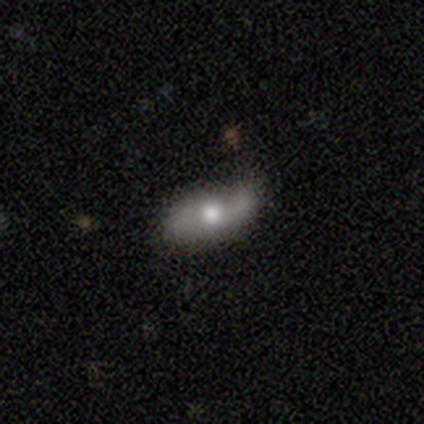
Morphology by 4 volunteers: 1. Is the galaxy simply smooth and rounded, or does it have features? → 75% smooth, 25% star or artifact, 0% featured or disk.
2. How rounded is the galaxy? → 67% in between, 33% round, 0% cigar-shaped.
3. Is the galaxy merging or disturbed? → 67% minor disturbance, 33% none, 0% major disturbance, 0% merger.